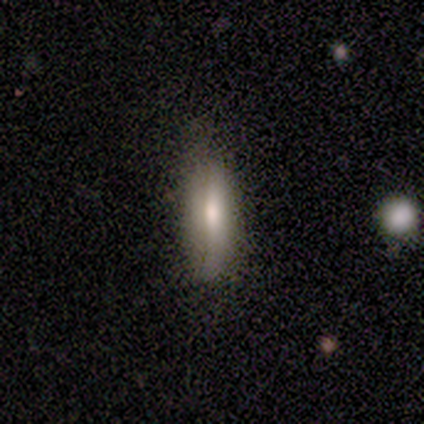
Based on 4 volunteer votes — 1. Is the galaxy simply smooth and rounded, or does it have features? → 75% smooth, 25% featured or disk, 0% star or artifact.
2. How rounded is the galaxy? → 33% round (tied), 33% in between (tied), 33% cigar-shaped (tied).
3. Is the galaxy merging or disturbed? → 50% minor disturbance, 25% none, 25% merger, 0% major disturbance.